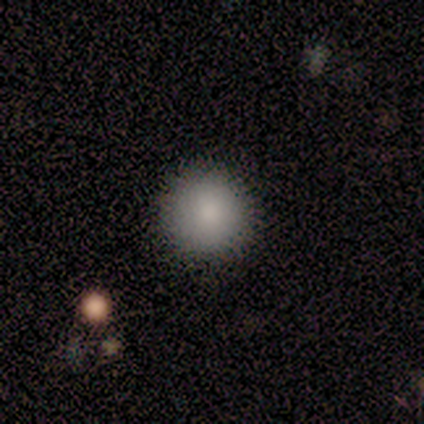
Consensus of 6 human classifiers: Overall: smooth (83%). How rounded: round (100%). Merging: none (100%).